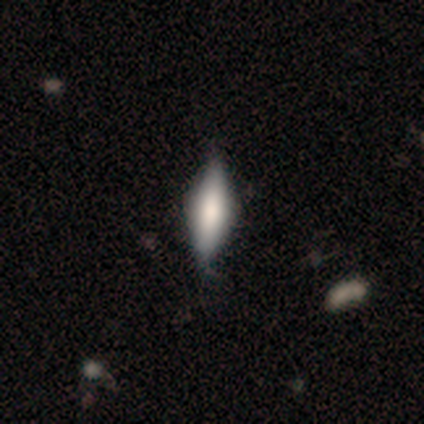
Smooth or featured? 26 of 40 (65%) said smooth. How rounded? 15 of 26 (58%) said in between. Merging? 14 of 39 (36%) said none.